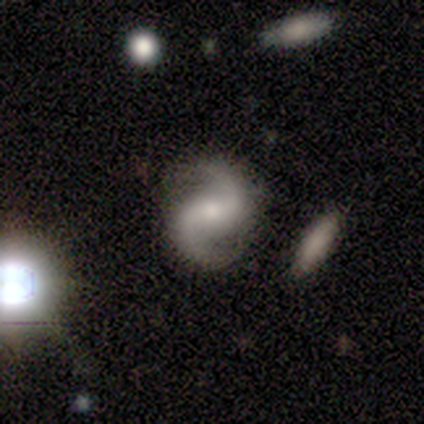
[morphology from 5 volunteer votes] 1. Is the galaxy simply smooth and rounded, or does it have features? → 100% featured or disk, 0% smooth, 0% star or artifact.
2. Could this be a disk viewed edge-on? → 100% no, 0% yes.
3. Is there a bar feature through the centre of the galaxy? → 60% weak, 40% strong, 0% no.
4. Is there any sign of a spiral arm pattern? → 100% yes, 0% no.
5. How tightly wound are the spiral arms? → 60% loose, 40% medium, 0% tight.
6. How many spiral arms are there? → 100% 2, 0% 1, 0% 3, 0% 4, 0% more than 4, 0% can't tell.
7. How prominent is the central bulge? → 60% moderate, 40% small, 0% dominant, 0% large, 0% none.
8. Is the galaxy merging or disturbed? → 100% none, 0% minor disturbance, 0% major disturbance, 0% merger.